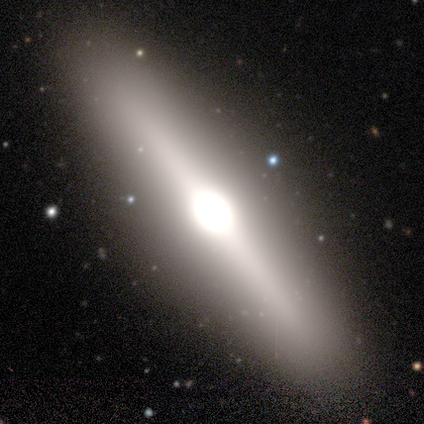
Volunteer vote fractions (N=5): Q: Smooth or featured?
A: featured or disk (80%); runner-up: star or artifact (20%)
Q: Edge-on disk?
A: yes (100%)
Q: Edge-on bulge?
A: rounded (100%)
Q: Merging?
A: none (100%)